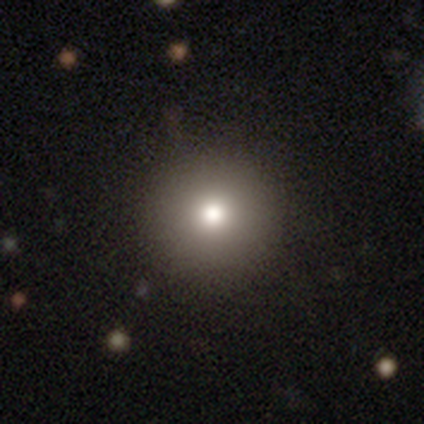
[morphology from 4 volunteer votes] A smooth galaxy with no disk features (75%) that is round (100%). Merging: none (100%).